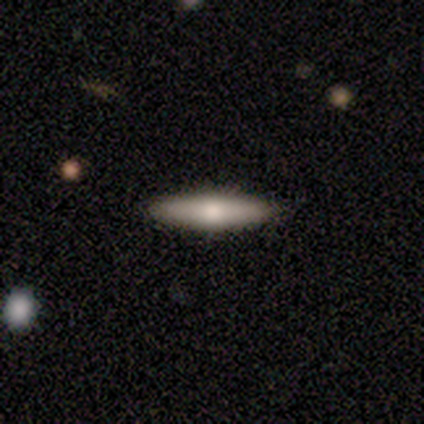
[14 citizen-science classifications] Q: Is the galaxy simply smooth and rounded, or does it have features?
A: smooth — 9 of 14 (64%).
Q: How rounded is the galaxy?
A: cigar-shaped — 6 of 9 (67%).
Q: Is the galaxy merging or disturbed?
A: none — 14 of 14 (100%).